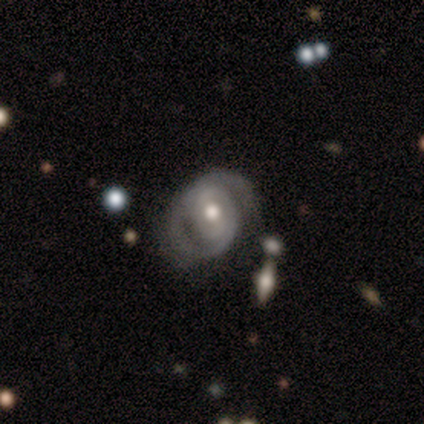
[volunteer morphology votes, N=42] A featured or disk galaxy (90%) with no bar (39%), 2 (50%) tight (78%) spiral arms (84%) and a moderate central bulge (76%). Merging: none (66%).